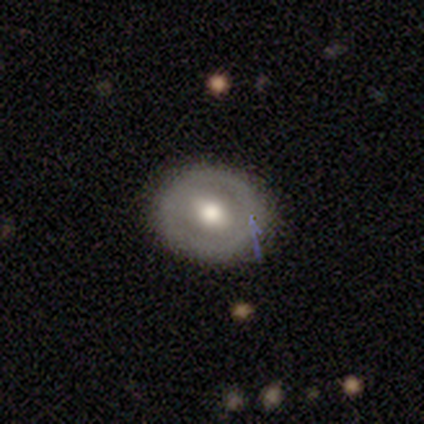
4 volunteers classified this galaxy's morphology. Smooth or featured? smooth (75%)
How rounded? round (67%)
Merging? none (100%)